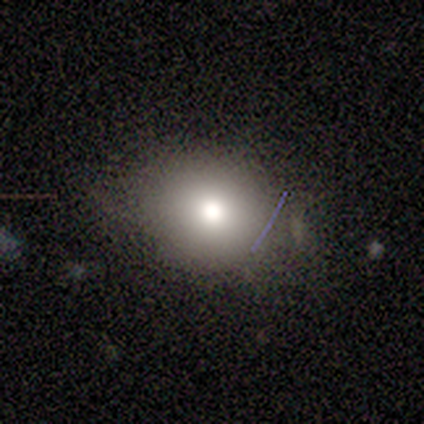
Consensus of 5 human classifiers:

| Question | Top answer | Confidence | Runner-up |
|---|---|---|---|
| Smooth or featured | smooth | 80% | star or artifact (20%) |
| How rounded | in between | 100% | — |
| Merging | none | 75% | minor disturbance (25%) |